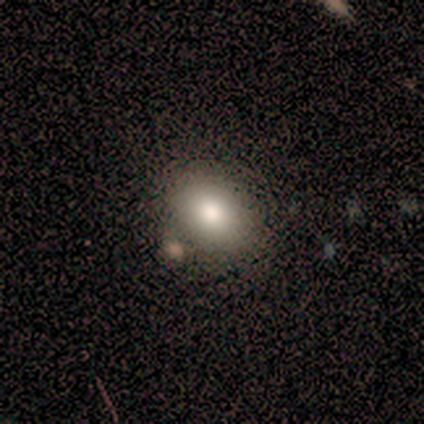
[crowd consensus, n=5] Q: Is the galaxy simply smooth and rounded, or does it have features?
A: smooth — 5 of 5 (100%).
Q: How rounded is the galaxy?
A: in between — 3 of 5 (60%).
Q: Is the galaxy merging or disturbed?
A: none — 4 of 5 (80%).